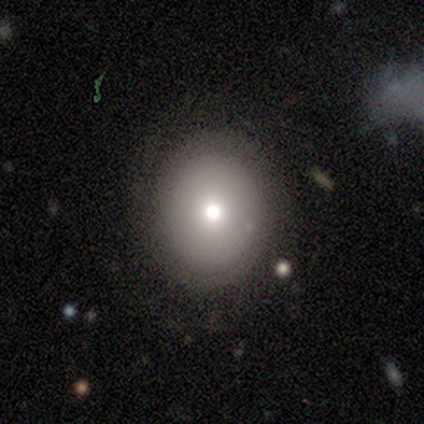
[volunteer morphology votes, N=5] Smooth or featured?
  - smooth: 60% *
  - featured or disk: 20%
  - star or artifact: 20%
How rounded?
  - round: 100% *
  - in between: 0%
  - cigar-shaped: 0%
Merging?
  - none: 100% *
  - minor disturbance: 0%
  - major disturbance: 0%
  - merger: 0%